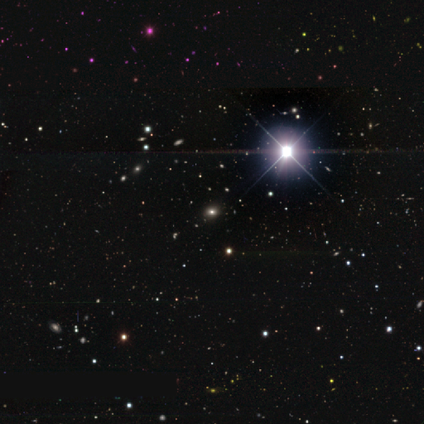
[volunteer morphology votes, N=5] This appears to be a star or artifact, not a galaxy (80%).